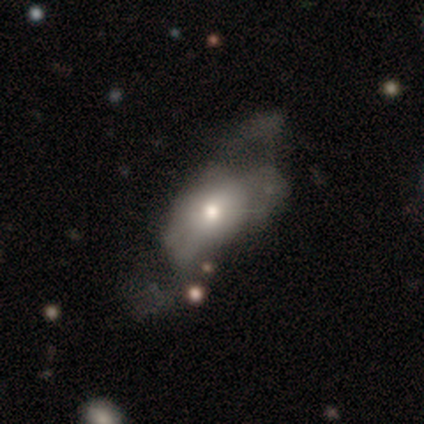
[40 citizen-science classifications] smooth-or-featured: smooth: 50% | featured or disk: 38% | star or artifact: 12%
  how-rounded: in between: 85% | round: 10% | cigar-shaped: 5%
  merging: major disturbance: 54% | none: 23% | minor disturbance: 11% | merger: 11%